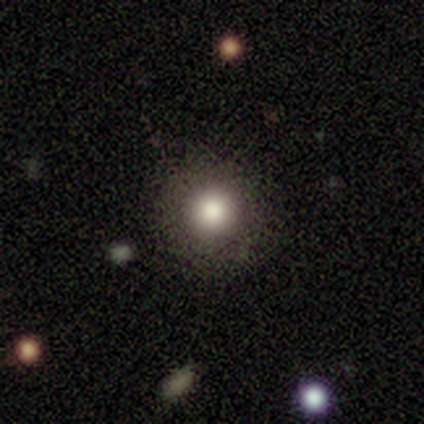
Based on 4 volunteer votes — Smooth or featured?
  - smooth: 100% *
  - featured or disk: 0%
  - star or artifact: 0%
How rounded?
  - round: 100% *
  - in between: 0%
  - cigar-shaped: 0%
Merging?
  - none: 100% *
  - minor disturbance: 0%
  - major disturbance: 0%
  - merger: 0%